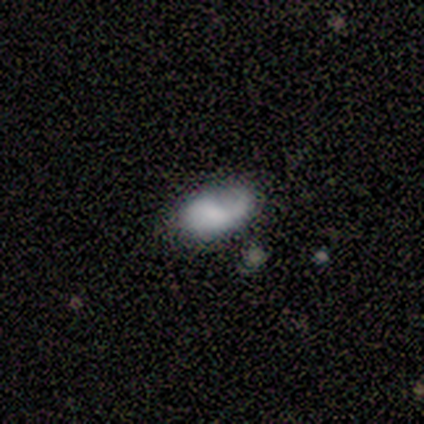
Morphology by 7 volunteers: Smooth or featured?
  - smooth: 57% *
  - featured or disk: 43%
  - star or artifact: 0%
How rounded?
  - in between: 75% *
  - cigar-shaped: 25%
  - round: 0%
Merging?
  - none: 100% *
  - minor disturbance: 0%
  - major disturbance: 0%
  - merger: 0%